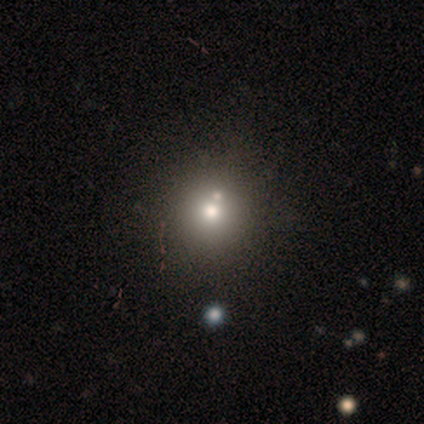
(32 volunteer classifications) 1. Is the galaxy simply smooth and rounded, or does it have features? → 66% smooth, 19% star or artifact, 16% featured or disk.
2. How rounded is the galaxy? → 90% round, 10% in between, 0% cigar-shaped.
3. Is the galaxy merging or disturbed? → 77% none, 12% merger, 8% minor disturbance, 4% major disturbance.